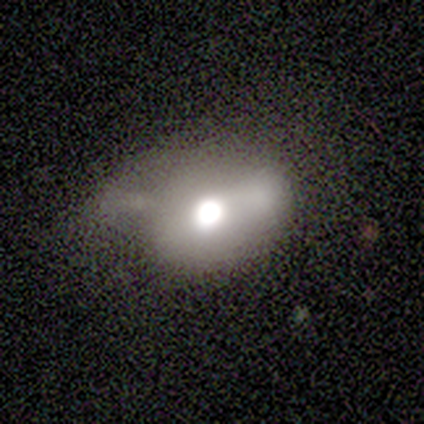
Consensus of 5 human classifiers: A featured or disk galaxy (40%, tied with star or artifact) with a strong bar (50%, tied with no), no spiral arms (100%) and a moderate central bulge (100%).

Vote fractions:
- Smooth or featured? featured or disk: 40% (tied) / star or artifact: 40% (tied) / smooth: 20%
- Edge-on disk? no: 100% / yes: 0%
- Bar? strong: 50% (tied) / no: 50% (tied) / weak: 0%
- Spiral arms? no: 100% / yes: 0%
- Bulge size? moderate: 100% / dominant: 0% / large: 0% / small: 0% / none: 0%
- Merging? major disturbance: 67% / merger: 33% / none: 0% / minor disturbance: 0%